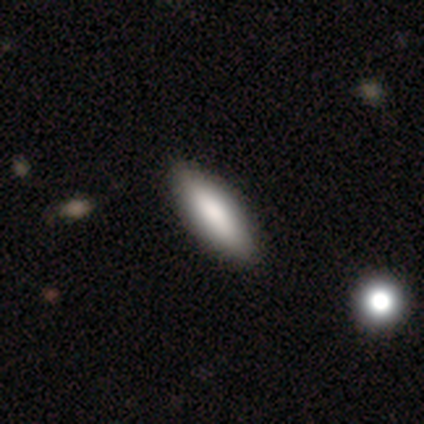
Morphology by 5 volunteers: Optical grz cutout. It shows a smooth galaxy with no disk features (100%) that is in between round and cigar-shaped (100%). Merging: none (60%).